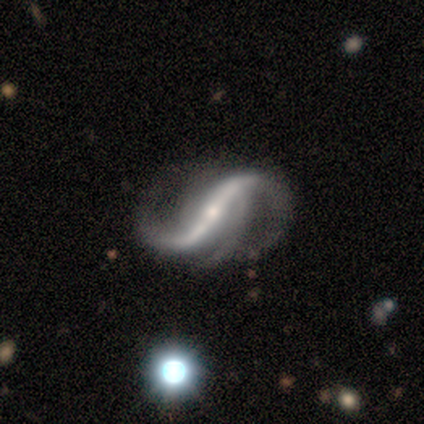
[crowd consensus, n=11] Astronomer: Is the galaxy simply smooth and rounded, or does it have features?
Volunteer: featured or disk — 100%.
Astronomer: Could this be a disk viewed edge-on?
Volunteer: no — 100%.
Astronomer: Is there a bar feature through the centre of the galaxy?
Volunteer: strong — 82%.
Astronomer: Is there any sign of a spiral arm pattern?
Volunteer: yes — 100%.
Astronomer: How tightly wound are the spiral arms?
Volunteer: loose — 91%.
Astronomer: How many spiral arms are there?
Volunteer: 2 — 73%.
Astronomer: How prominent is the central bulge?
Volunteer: small — 73%.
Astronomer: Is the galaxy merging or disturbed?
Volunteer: none — 55%.